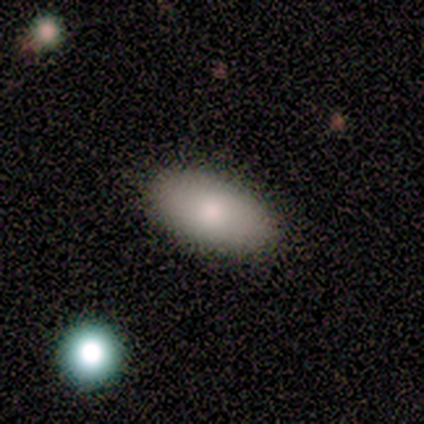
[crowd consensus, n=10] A smooth galaxy with no disk features (90%) that is in between round and cigar-shaped (89%). Merging: none (100%).